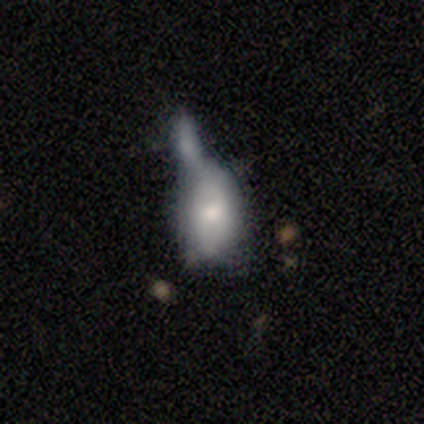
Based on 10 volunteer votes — Smooth or featured: smooth — 70% (featured or disk — 30%)
How rounded: in between — 86% (round — 14%)
Merging: merger — 70% (minor disturbance — 20%)